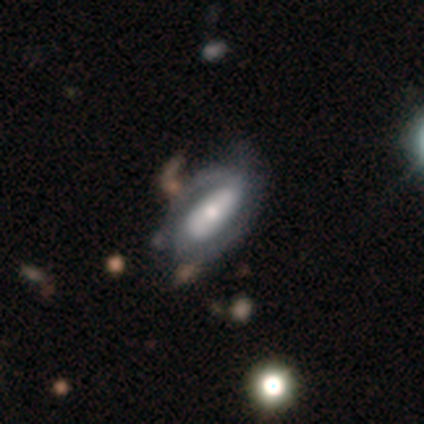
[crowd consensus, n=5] Q: Smooth or featured?
A: featured or disk (60%); runner-up: smooth (40%)
Q: Edge-on disk?
A: no (100%)
Q: Bar?
A: strong (67%); runner-up: no (33%)
Q: Spiral arms?
A: yes (67%); runner-up: no (33%)
Q: Spiral winding?
A: tight (50%); tied with: medium (50%)
Q: Spiral arm count?
A: 2 (100%)
Q: Bulge size?
A: moderate (100%)
Q: Merging?
A: none (60%); runner-up: minor disturbance (20%)